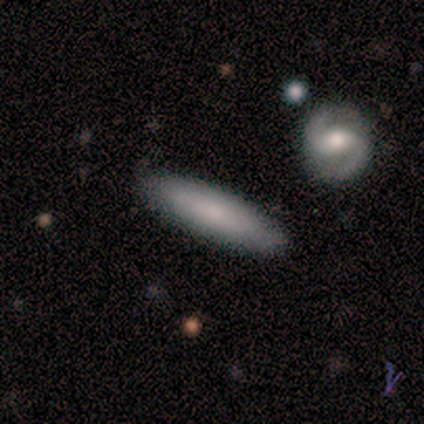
Morphology: type=smooth (80%); roundness=in between (50%, tied with cigar-shaped); merging=none (100%).